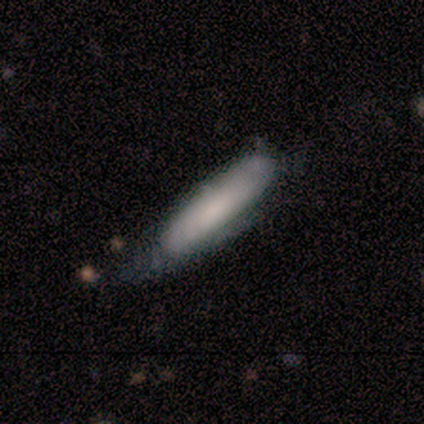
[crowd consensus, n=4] Overall: smooth (50%, tied with featured or disk). How rounded: in between (100%). Merging: none (75%).